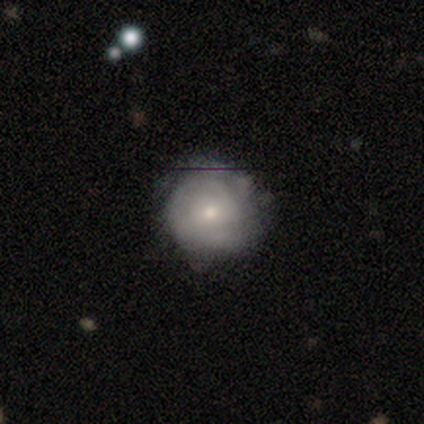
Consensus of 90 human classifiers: featured or disk 52%, smooth 42%, star or artifact 6%. Down the decision tree: edge-on disk — no (100%); bar — no (72%); spiral arms — yes (70%); spiral arm count — can't tell (58%); spiral winding — tight (76%); bulge size — small (55%); merging — none (75%).